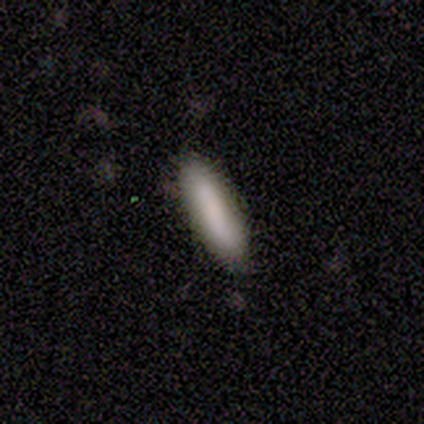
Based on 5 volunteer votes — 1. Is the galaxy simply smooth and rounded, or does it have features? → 100% smooth, 0% featured or disk, 0% star or artifact.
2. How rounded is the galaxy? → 100% cigar-shaped, 0% round, 0% in between.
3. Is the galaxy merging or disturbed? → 100% none, 0% minor disturbance, 0% major disturbance, 0% merger.